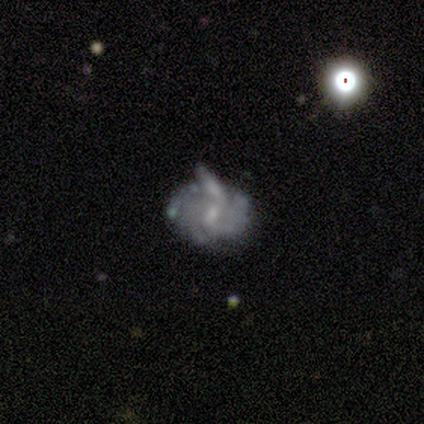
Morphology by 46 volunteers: Smooth or featured? 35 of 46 (76%) said featured or disk. Edge-on disk? 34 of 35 (97%) said no. Bar? 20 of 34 (59%) said no. Spiral arms? 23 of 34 (68%) said yes. Spiral winding? 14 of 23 (61%) said tight. Spiral arm count? 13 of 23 (57%) said can't tell. Bulge size? 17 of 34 (50%) said small. Merging? 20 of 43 (47%) said none.